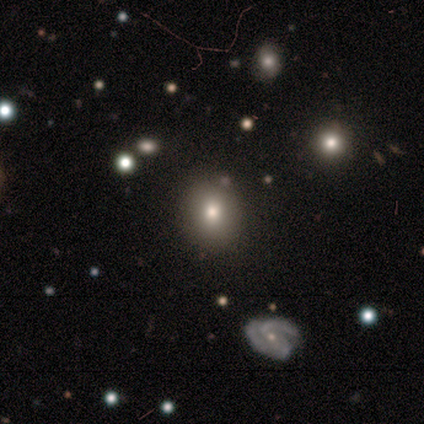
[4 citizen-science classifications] Smooth or featured? 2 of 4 (50%) said smooth. How rounded? 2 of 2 (100%) said round. Merging? 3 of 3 (100%) said none.